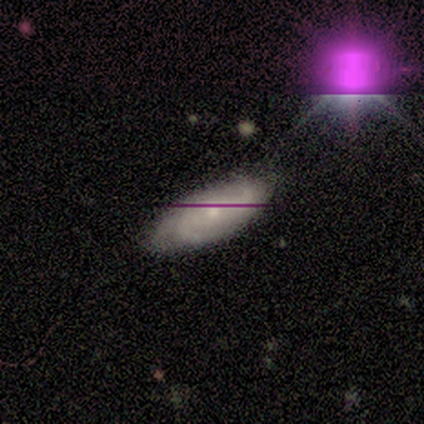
Smooth or featured? featured or disk (67%)
Edge-on disk? no (100%)
Bar? no (75%)
Spiral arms? yes (75%)
Spiral winding? medium (67%)
Spiral arm count? 3 (67%)
Bulge size? small (100%)
Merging? none (50%, tied with minor disturbance)